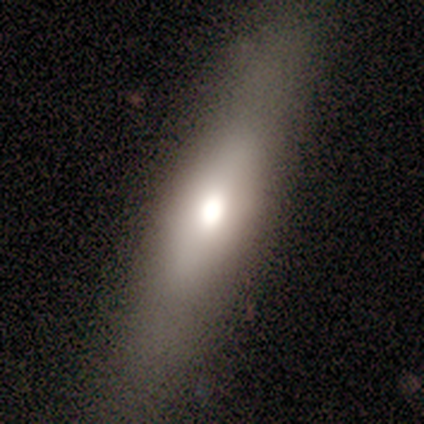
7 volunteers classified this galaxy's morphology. This appears to be a smooth galaxy with no disk features (43%, tied with featured or disk) that is in between round and cigar-shaped (67%). Merging: none (67%).